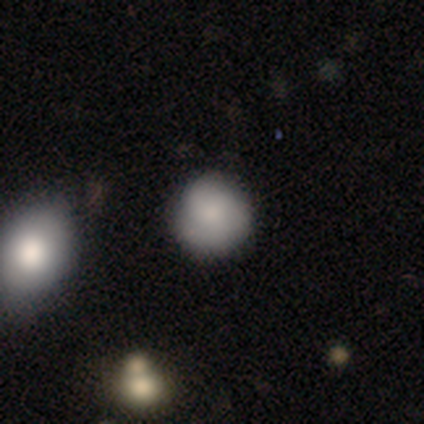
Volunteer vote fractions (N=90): A smooth galaxy with no disk features (74%) that is round (90%). Merging: none (83%).